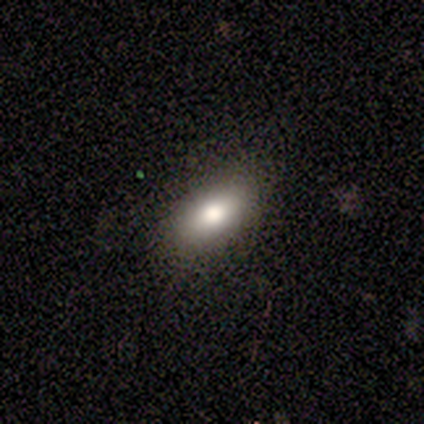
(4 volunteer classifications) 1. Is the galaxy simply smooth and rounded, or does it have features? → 100% smooth, 0% featured or disk, 0% star or artifact.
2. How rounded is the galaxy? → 75% in between, 25% round, 0% cigar-shaped.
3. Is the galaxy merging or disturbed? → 100% none, 0% minor disturbance, 0% major disturbance, 0% merger.